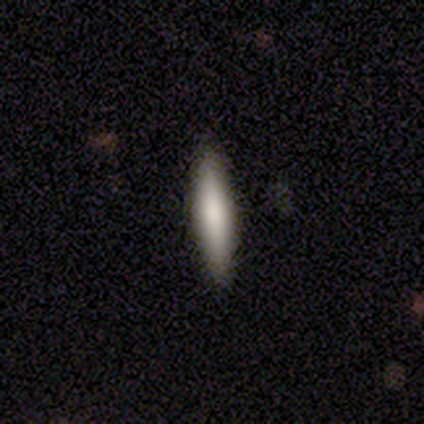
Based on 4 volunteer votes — Q: Smooth or featured?
A: smooth (75%); runner-up: featured or disk (25%)
Q: How rounded?
A: cigar-shaped (67%); runner-up: in between (33%)
Q: Merging?
A: none (100%)